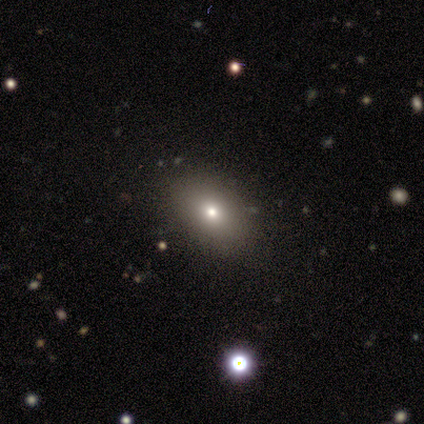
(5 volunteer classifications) Q: Smooth or featured?
A: smooth (80%); runner-up: star or artifact (20%)
Q: How rounded?
A: in between (75%); runner-up: round (25%)
Q: Merging?
A: none (75%); runner-up: minor disturbance (25%)